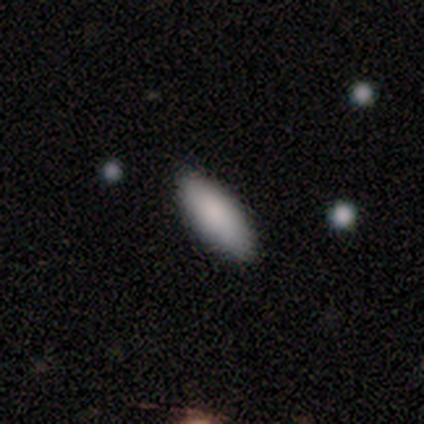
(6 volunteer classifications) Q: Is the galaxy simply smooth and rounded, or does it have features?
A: smooth — 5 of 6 (83%).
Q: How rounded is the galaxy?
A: in between — 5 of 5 (100%).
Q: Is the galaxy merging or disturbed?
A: none — 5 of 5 (100%).